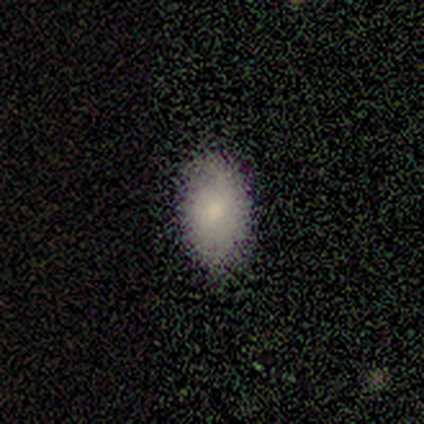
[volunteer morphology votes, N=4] Smooth or featured? 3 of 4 (75%) said smooth. How rounded? 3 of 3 (100%) said in between. Merging? 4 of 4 (100%) said none.